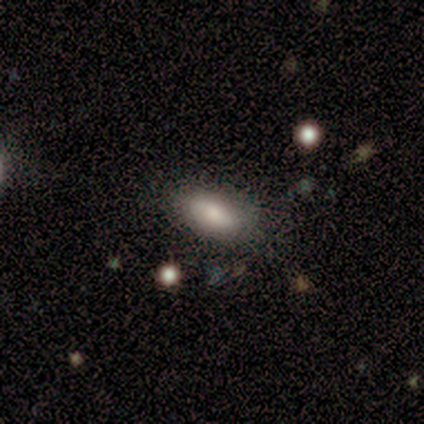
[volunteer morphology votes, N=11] smooth-or-featured: smooth: 64% | featured or disk: 27% | star or artifact: 9%
  how-rounded: in between: 86% | round: 14% | cigar-shaped: 0%
  merging: none: 80% | minor disturbance: 20% | major disturbance: 0% | merger: 0%